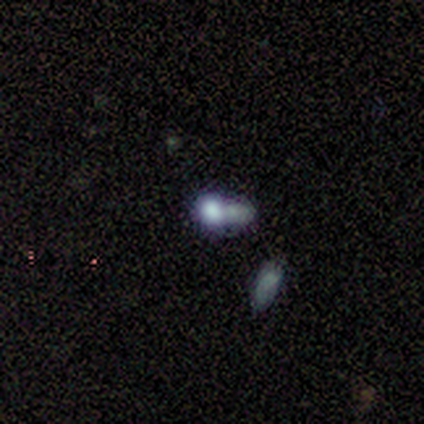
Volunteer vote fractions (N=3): This is likely a smooth galaxy (67%). How rounded: clearly round (100%). Merging: likely merger (67%).